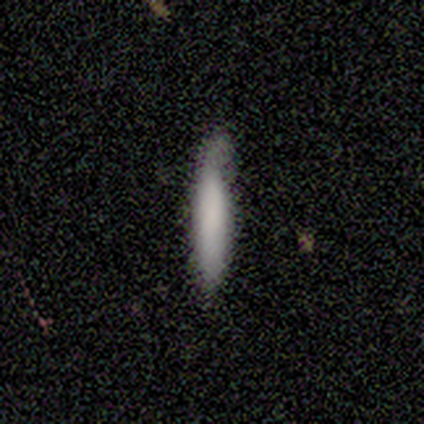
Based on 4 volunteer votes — This appears to be a smooth galaxy with no disk features (100%) that is cigar-shaped (100%). Merging: minor disturbance (75%).